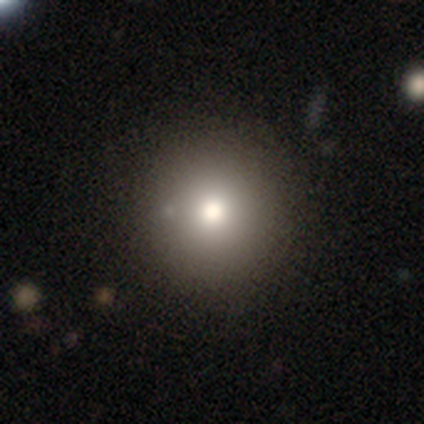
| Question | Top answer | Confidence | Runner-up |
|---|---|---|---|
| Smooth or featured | smooth | 60% | star or artifact (40%) |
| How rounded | round | 100% | — |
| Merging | none | 100% | — |